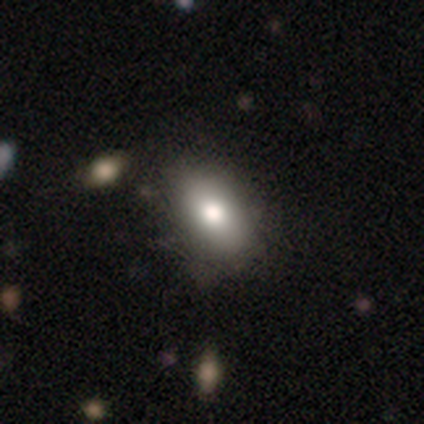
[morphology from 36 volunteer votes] This appears to be a smooth galaxy with no disk features (89%) that is in between round and cigar-shaped (84%). Merging: none (47%).